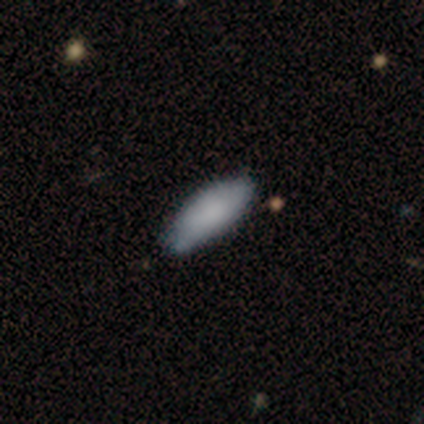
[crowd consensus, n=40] This is clearly a smooth galaxy (82%). How rounded: likely in between (79%). Merging: likely none (64%).